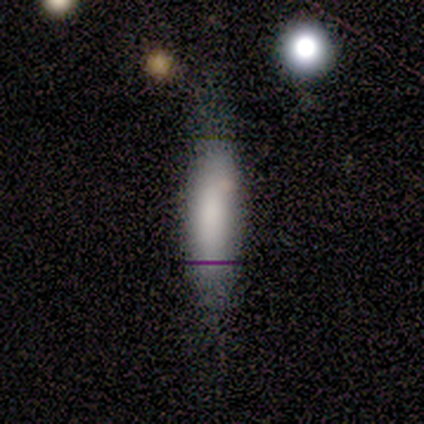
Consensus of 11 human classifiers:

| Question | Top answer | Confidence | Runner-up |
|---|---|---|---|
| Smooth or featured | smooth | 82% | star or artifact (18%) |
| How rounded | in between | 56% | cigar-shaped (44%) |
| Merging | none | 56% | minor disturbance (22%) |